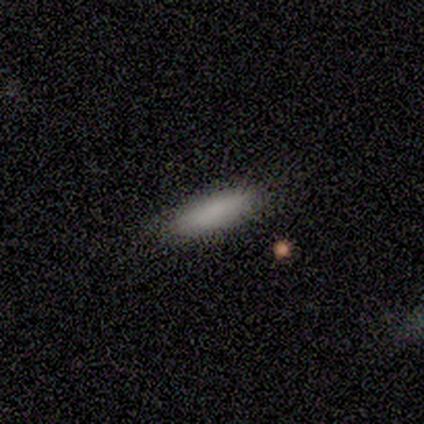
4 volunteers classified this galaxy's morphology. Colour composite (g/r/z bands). It shows a smooth galaxy with no disk features (75%) that is in between round and cigar-shaped (67%). Merging: minor disturbance (67%).